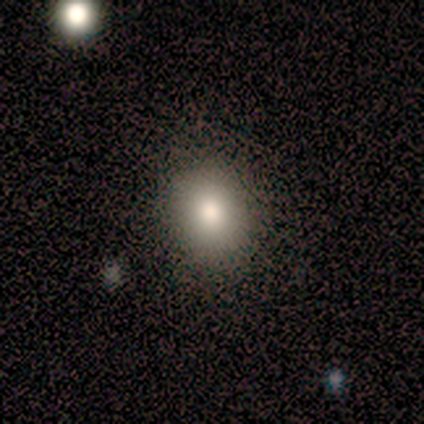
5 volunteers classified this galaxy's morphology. A smooth galaxy with no disk features (100%) that is in between round and cigar-shaped (60%).

Vote fractions:
- Smooth or featured? smooth: 100% / featured or disk: 0% / star or artifact: 0%
- How rounded? in between: 60% / round: 40% / cigar-shaped: 0%
- Merging? none: 80% / minor disturbance: 20% / major disturbance: 0% / merger: 0%